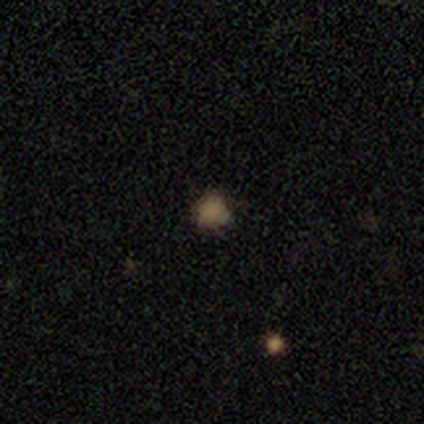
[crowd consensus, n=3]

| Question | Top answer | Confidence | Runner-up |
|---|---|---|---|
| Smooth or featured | smooth | 67% | star or artifact (33%) |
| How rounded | round | 100% | — |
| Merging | none | 100% | — |